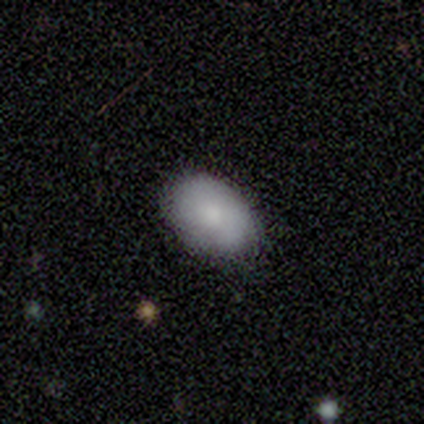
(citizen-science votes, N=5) Smooth or featured: smooth — 60% (featured or disk — 20%)
How rounded: in between — 100%
Merging: none — 100%